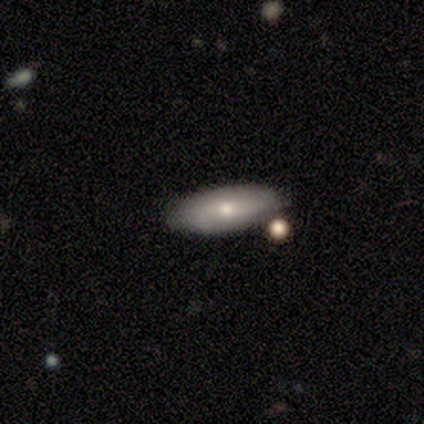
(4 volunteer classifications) Q: Smooth or featured?
A: featured or disk (75%); runner-up: smooth (25%)
Q: Edge-on disk?
A: no (100%)
Q: Bar?
A: strong (33%); tied with: weak (33%); no (33%)
Q: Spiral arms?
A: yes (67%); runner-up: no (33%)
Q: Spiral winding?
A: tight (50%); tied with: loose (50%)
Q: Spiral arm count?
A: 2 (50%); tied with: can't tell (50%)
Q: Bulge size?
A: moderate (67%); runner-up: small (33%)
Q: Merging?
A: none (100%)